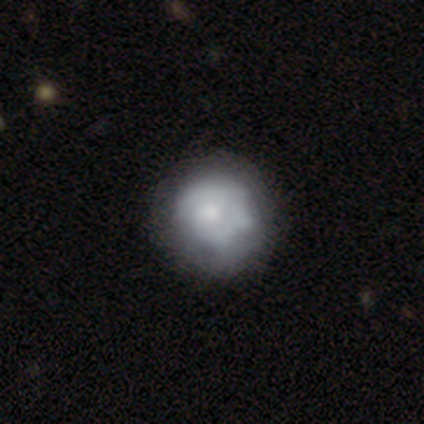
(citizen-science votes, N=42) Q: Smooth or featured?
A: featured or disk (67%); runner-up: smooth (31%)
Q: Edge-on disk?
A: no (100%)
Q: Bar?
A: no (86%); runner-up: weak (11%)
Q: Spiral arms?
A: no (68%); runner-up: yes (32%)
Q: Bulge size?
A: small (46%); runner-up: moderate (25%)
Q: Merging?
A: minor disturbance (24%); runner-up: none (22%)